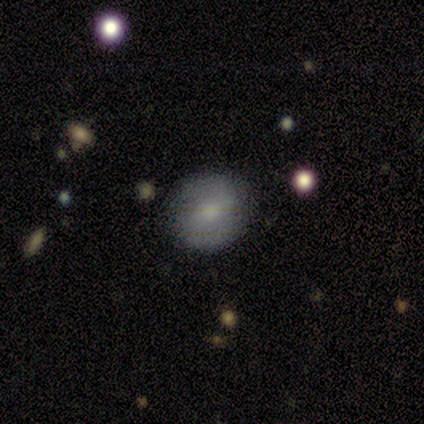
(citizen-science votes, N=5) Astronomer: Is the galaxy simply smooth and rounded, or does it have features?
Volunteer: featured or disk — 60% (runner-up: smooth, 40%).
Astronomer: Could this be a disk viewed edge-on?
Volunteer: no — 100%.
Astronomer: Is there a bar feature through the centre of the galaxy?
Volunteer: no — 67%.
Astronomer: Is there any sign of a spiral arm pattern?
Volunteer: no — 67%.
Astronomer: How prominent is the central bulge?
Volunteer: small — 67%.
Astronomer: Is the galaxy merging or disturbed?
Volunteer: none — 60% (runner-up: minor disturbance, 40%).